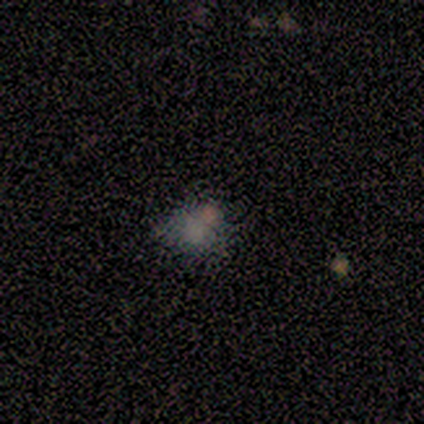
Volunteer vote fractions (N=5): Volunteers were most divided on "merging" (2-way tie): none: 50%, merger: 50%, minor disturbance: 0%, major disturbance: 0%. More confident: how rounded — round (67%); smooth or featured — smooth (60%).